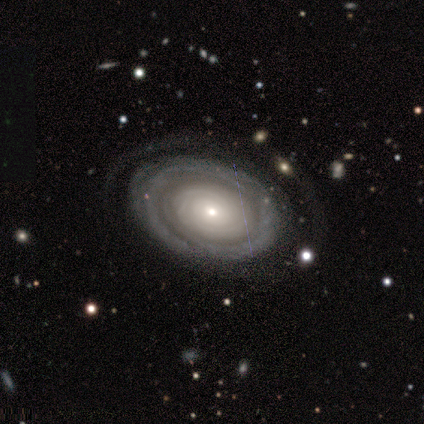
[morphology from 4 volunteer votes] Volunteers were most divided on "spiral arms" (2-way tie): yes: 50%, no: 50%; "spiral arm count" (2-way tie): 1: 50%, can't tell: 50%, 2: 0%, 3: 0%, 4: 0%, more than 4: 0%. More confident: smooth or featured — featured or disk (100%); edge-on disk — no (100%); bar — no (100%); spiral winding — tight (100%); merging — none (100%); bulge size — small (75%).